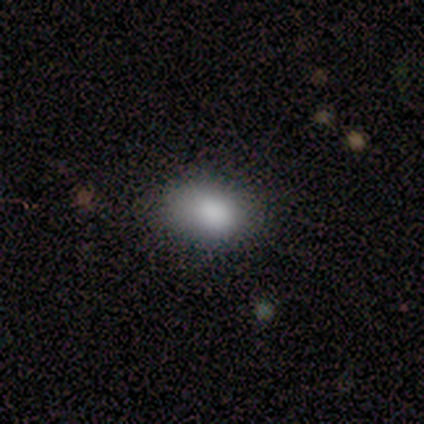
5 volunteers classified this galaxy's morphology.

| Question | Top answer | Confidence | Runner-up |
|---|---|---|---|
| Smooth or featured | smooth | 100% | — |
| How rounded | in between | 60% | round (40%) |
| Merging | none | 100% | — |